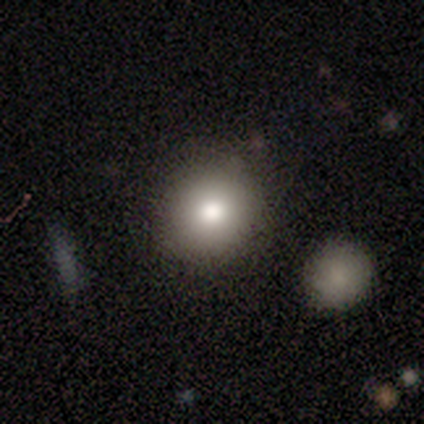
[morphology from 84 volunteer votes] Smooth or featured? 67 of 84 (80%) said smooth. How rounded? 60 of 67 (90%) said round. Merging? 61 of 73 (84%) said none.